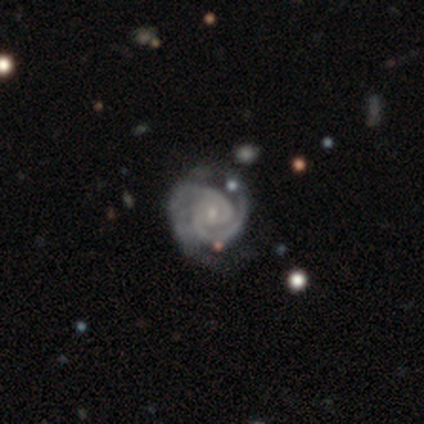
Q: Smooth or featured?
A: featured or disk (100%)
Q: Edge-on disk?
A: no (100%)
Q: Bar?
A: no (80%); runner-up: weak (20%)
Q: Spiral arms?
A: yes (100%)
Q: Spiral winding?
A: tight (60%); runner-up: medium (20%)
Q: Spiral arm count?
A: 2 (60%); runner-up: 3 (20%)
Q: Bulge size?
A: small (60%); runner-up: moderate (40%)
Q: Merging?
A: none (60%); runner-up: minor disturbance (40%)